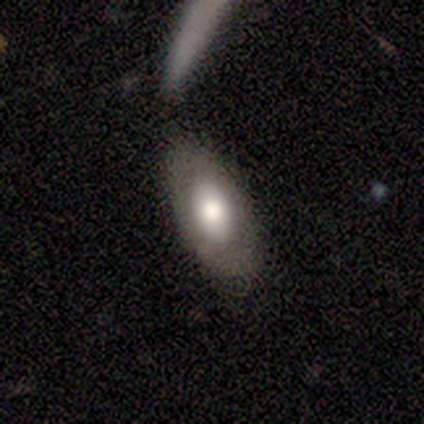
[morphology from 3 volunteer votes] Smooth or featured? 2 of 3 (67%) said smooth. How rounded? 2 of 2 (100%) said in between. Merging? 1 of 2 (50%, tied with major disturbance) said minor disturbance.